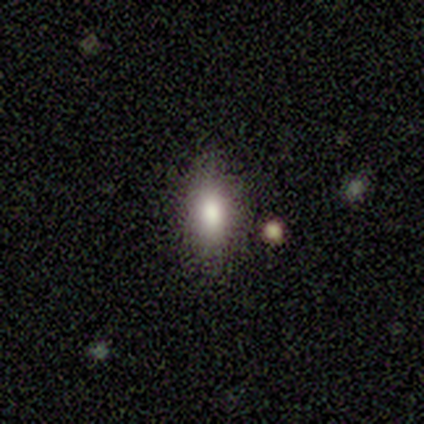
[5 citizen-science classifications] Overall: smooth (100%). How rounded: in between (100%). Merging: none (100%).